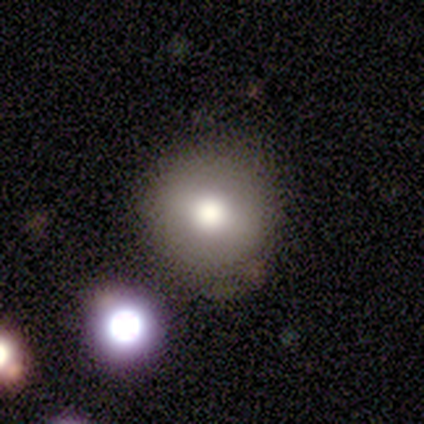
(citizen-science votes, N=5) Smooth or featured? smooth (100%)
How rounded? round (100%)
Merging? none (100%)